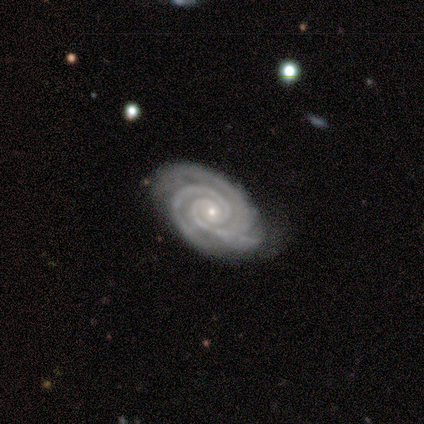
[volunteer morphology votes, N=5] featured or disk 80%, star or artifact 20%, smooth 0%. Down the decision tree: edge-on disk — no (100%); bar — no (75%); spiral arms — yes (100%); spiral arm count — 3 (50%); spiral winding — tight (75%); bulge size — small (75%); merging — none (50%).